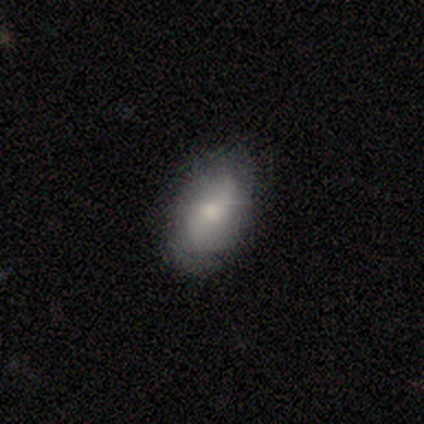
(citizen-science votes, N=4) This appears to be a smooth galaxy with no disk features (75%) that is in between round and cigar-shaped (100%). Merging: none (33%, tied with minor disturbance and major disturbance).